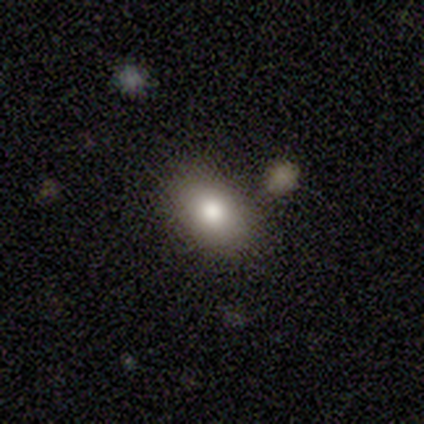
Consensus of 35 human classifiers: A smooth galaxy with no disk features (74%) that is in between round and cigar-shaped (85%).

Vote fractions:
- Smooth or featured? smooth: 74% / featured or disk: 14% / star or artifact: 11%
- How rounded? in between: 85% / round: 15% / cigar-shaped: 0%
- Merging? none: 77% / merger: 13% / minor disturbance: 6% / major disturbance: 3%